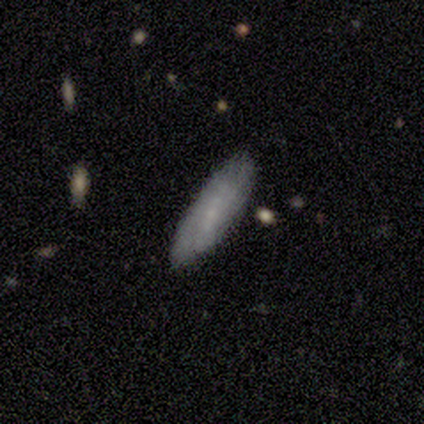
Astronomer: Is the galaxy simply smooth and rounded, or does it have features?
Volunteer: smooth — 80%.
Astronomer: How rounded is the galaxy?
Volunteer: cigar-shaped — 75%.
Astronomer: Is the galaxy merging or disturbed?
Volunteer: none — 100%.